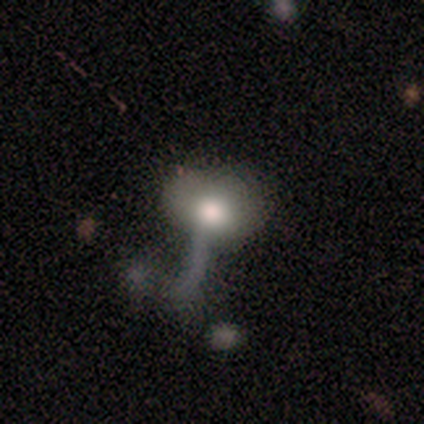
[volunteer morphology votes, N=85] Overall: smooth (54%; featured or disk 38%). How rounded: in between (72%). Merging: major disturbance (46%; none 21%).